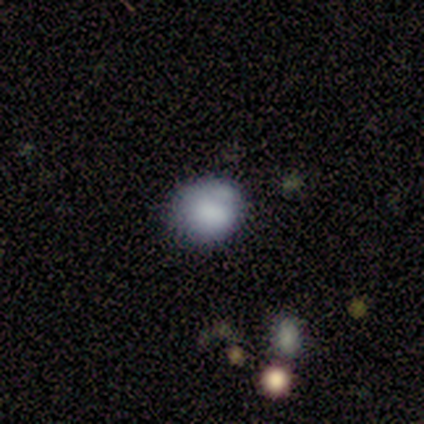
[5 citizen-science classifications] Overall: smooth (80%). How rounded: round (75%). Merging: none (60%; minor disturbance 20%).